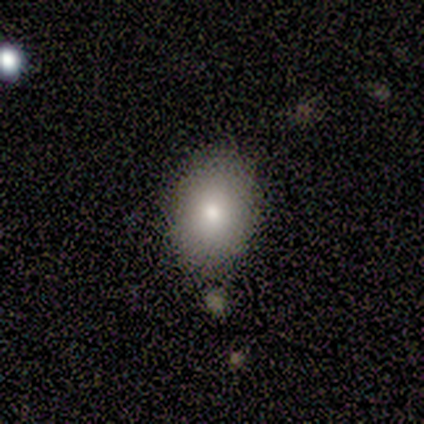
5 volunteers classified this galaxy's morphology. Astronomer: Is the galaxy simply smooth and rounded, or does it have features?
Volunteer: smooth — 100%.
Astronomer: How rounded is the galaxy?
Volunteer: in between — 80%.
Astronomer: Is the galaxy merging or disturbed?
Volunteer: none — 100%.